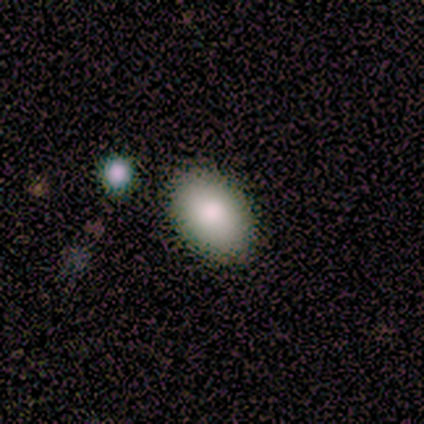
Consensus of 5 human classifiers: smooth_or_featured: smooth (p=0.80) [alt: featured or disk p=0.20]
how_rounded: in between (p=0.75) [alt: round p=0.25]
merging: none (p=1.00)